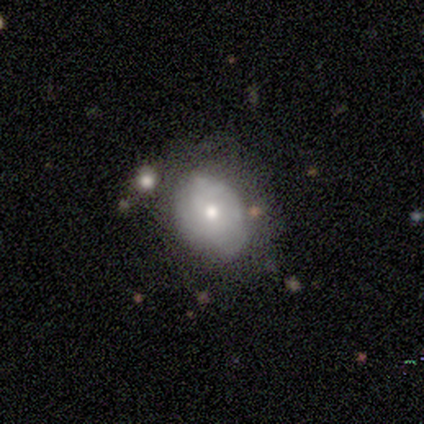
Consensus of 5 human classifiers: smooth-or-featured: smooth: 40% (tied) | featured or disk: 40% (tied) | star or artifact: 20%
  how-rounded: in between: 50% (tied) | cigar-shaped: 50% (tied) | round: 0%
  merging: major disturbance: 50% | none: 25% | minor disturbance: 25% | merger: 0%